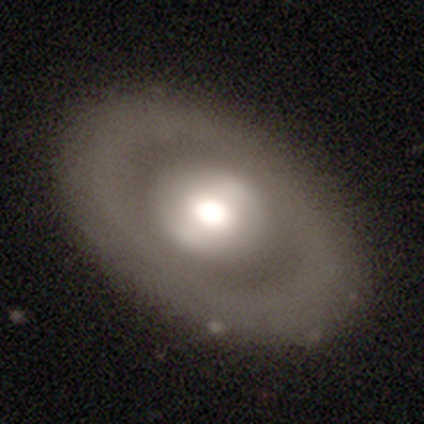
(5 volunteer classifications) Morphology: type=featured or disk (60%); edge-on=no (100%); bar=weak (67%); spiral arms=no (100%); bulge=moderate (67%); merging=none (80%).